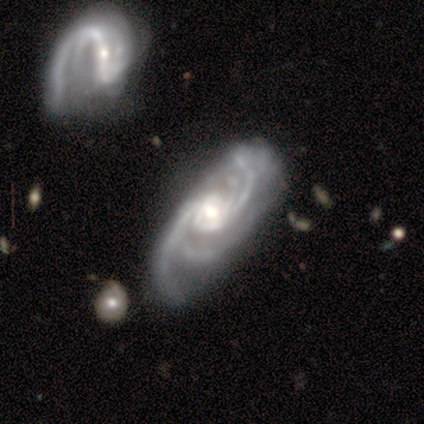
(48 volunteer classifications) Q: Smooth or featured?
A: featured or disk (90%); runner-up: smooth (6%)
Q: Edge-on disk?
A: no (100%)
Q: Bar?
A: no (65%); runner-up: weak (28%)
Q: Spiral arms?
A: yes (100%)
Q: Spiral winding?
A: medium (51%); runner-up: tight (37%)
Q: Spiral arm count?
A: 4 (60%); runner-up: 2 (12%)
Q: Bulge size?
A: moderate (49%); runner-up: large (26%)
Q: Merging?
A: none (67%); runner-up: minor disturbance (17%)